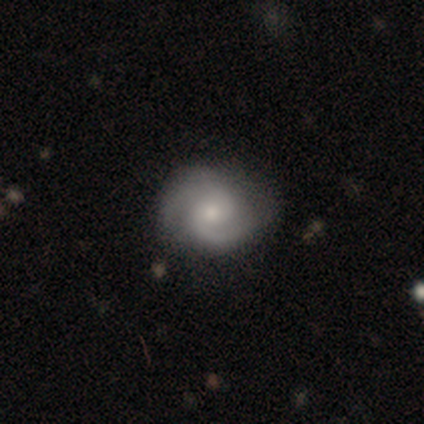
Q: Smooth or featured?
A: featured or disk (87%); runner-up: smooth (11%)
Q: Edge-on disk?
A: no (97%); runner-up: yes (3%)
Q: Bar?
A: no (69%); runner-up: weak (31%)
Q: Spiral arms?
A: yes (97%); runner-up: no (3%)
Q: Spiral winding?
A: tight (52%); runner-up: medium (32%)
Q: Spiral arm count?
A: 2 (87%); runner-up: 1 (6%)
Q: Bulge size?
A: moderate (50%); runner-up: small (41%)
Q: Merging?
A: none (70%); runner-up: minor disturbance (24%)